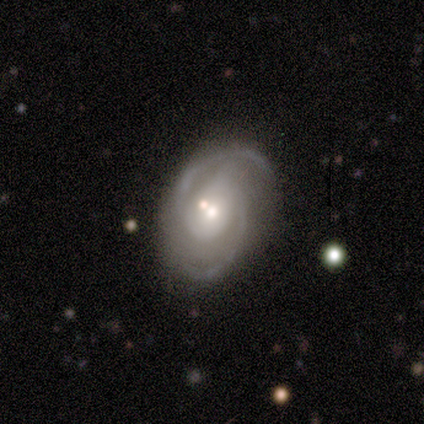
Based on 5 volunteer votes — smooth-or-featured: featured or disk: 100% | smooth: 0% | star or artifact: 0%
  disk-edge-on: no: 100% | yes: 0%
    bar: no: 60% | strong: 20% | weak: 20%
    has-spiral-arms: yes: 100% | no: 0%
      spiral-winding: medium: 80% | loose: 20% | tight: 0%
      spiral-arm-count: 2: 80% | 3: 20% | 1: 0% | 4: 0% | more than 4: 0% | can't tell: 0%
    bulge-size: moderate: 80% | large: 20% | dominant: 0% | small: 0% | none: 0%
  merging: none: 80% | major disturbance: 20% | minor disturbance: 0% | merger: 0%